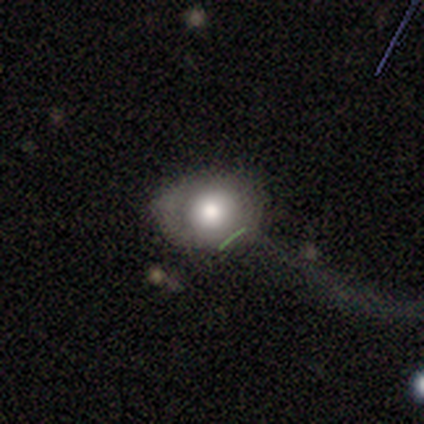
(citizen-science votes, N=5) smooth_or_featured: featured or disk (p=0.80) [alt: smooth p=0.20]
disk_edge_on: no (p=1.00)
bar: no (p=0.75) [alt: weak p=0.25]
has_spiral_arms: no (p=1.00)
bulge_size: large (p=0.75) [alt: small p=0.25]
merging: none (p=0.60) [alt: major disturbance p=0.40]